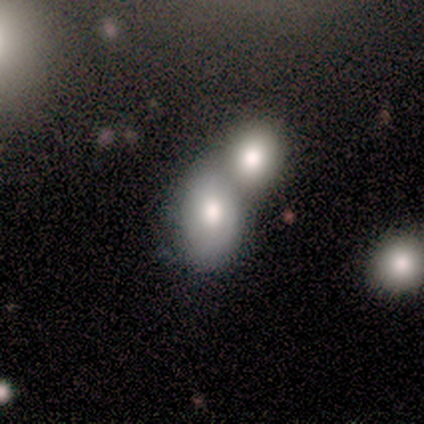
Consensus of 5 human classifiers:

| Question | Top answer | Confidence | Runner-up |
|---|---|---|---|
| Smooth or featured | smooth | 60% | featured or disk (40%) |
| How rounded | in between | 100% | — |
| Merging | merger | 80% | none (20%) |